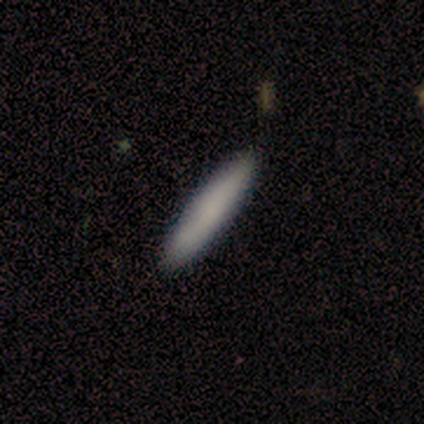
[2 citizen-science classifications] A smooth galaxy with no disk features (100%) that is cigar-shaped (100%). Merging: none (100%).